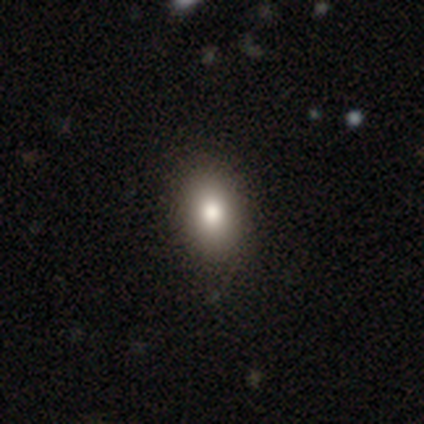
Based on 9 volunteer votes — Morphology: type=smooth (67%); roundness=in between (83%); merging=none (83%).